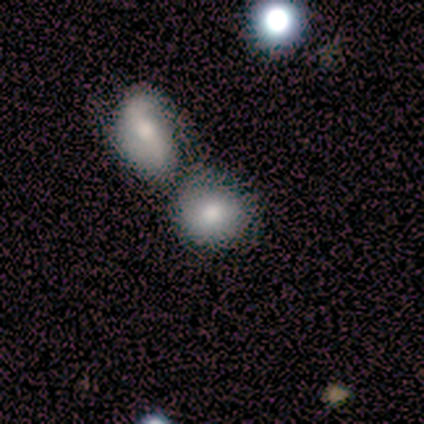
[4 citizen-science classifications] This appears to be a smooth galaxy with no disk features (100%) that is round (50%, tied with in between). Merging: merger (50%).